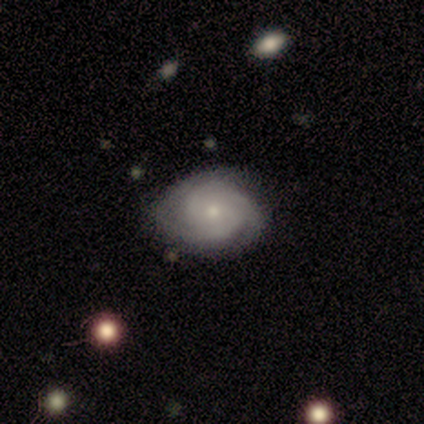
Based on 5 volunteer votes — smooth_or_featured: featured or disk (p=0.60) [alt: smooth p=0.40]
disk_edge_on: no (p=1.00)
bar: no (p=0.67) [alt: weak p=0.33]
has_spiral_arms: yes (p=1.00)
spiral_winding: tight (p=0.33) [tied with: medium p=0.33, loose p=0.33]
spiral_arm_count: 2 (p=1.00)
bulge_size: small (p=0.67) [alt: moderate p=0.33]
merging: none (p=1.00)